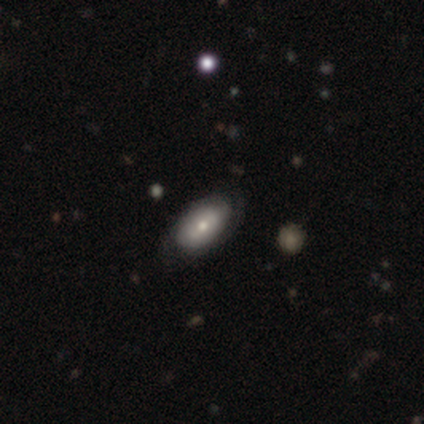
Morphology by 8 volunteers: Smooth or featured? 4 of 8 (50%, tied with featured or disk) said smooth. How rounded? 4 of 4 (100%) said in between. Merging? 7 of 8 (88%) said none.